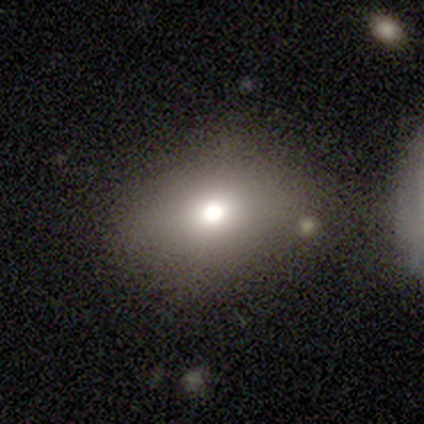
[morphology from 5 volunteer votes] A smooth galaxy with no disk features (80%) that is round (75%). Merging: none (100%).